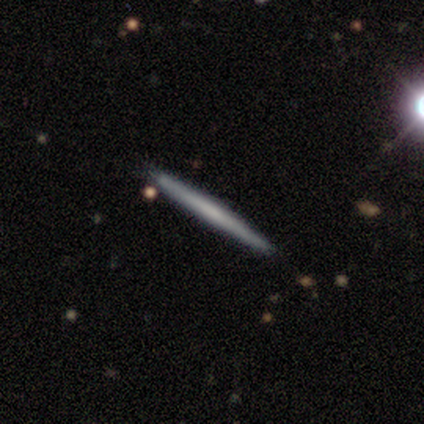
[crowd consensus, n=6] smooth-or-featured: smooth: 67% | featured or disk: 33% | star or artifact: 0%
  how-rounded: cigar-shaped: 100% | round: 0% | in between: 0%
  merging: none: 100% | minor disturbance: 0% | major disturbance: 0% | merger: 0%